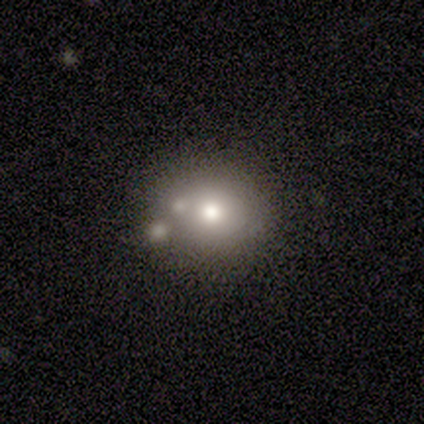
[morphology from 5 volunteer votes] A smooth galaxy with no disk features (100%) that is round (100%).

Vote fractions:
- Smooth or featured? smooth: 100% / featured or disk: 0% / star or artifact: 0%
- How rounded? round: 100% / in between: 0% / cigar-shaped: 0%
- Merging? none: 40% (tied) / merger: 40% (tied) / major disturbance: 20% / minor disturbance: 0%